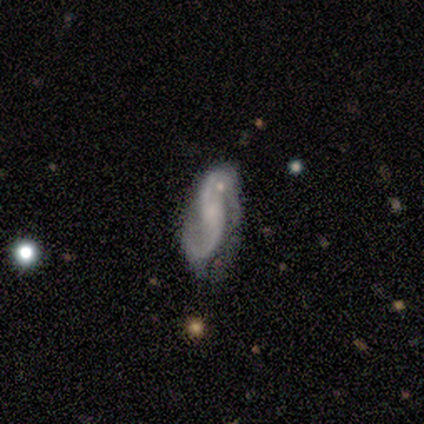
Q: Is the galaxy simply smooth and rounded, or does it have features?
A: featured or disk — 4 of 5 (80%).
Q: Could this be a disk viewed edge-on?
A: no — 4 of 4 (100%).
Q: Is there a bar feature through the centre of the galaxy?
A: weak — 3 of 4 (75%).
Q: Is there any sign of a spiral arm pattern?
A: yes — 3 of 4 (75%).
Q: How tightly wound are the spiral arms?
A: loose — 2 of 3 (67%).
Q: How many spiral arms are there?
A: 2 — 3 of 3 (100%).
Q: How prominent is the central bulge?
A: small — 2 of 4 (50%).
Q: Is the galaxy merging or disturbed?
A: none — 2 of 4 (50%).